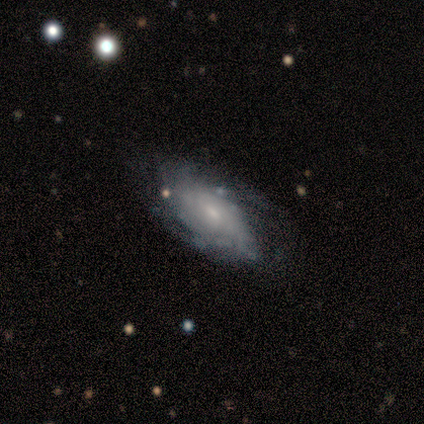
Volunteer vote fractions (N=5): Smooth or featured? featured or disk (60%)
Edge-on disk? no (100%)
Bar? weak (67%)
Spiral arms? yes (100%)
Spiral winding? medium (67%)
Spiral arm count? can't tell (67%)
Bulge size? small (100%)
Merging? minor disturbance (40%, tied with major disturbance)